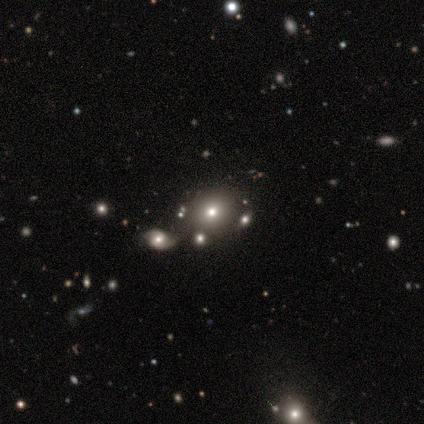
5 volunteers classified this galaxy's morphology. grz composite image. It shows a smooth galaxy with no disk features (80%) that is round (50%, tied with in between). Merging: none (50%, tied with merger).